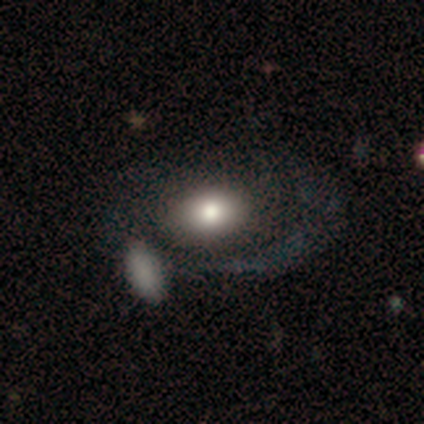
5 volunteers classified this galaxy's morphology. Volunteers were most divided on "merging" (2-way tie): none: 40%, merger: 40%, major disturbance: 20%, minor disturbance: 0%. More confident: edge-on disk — no (100%); bar — no (67%); spiral arms — no (67%); bulge size — moderate (67%); smooth or featured — featured or disk (60%).